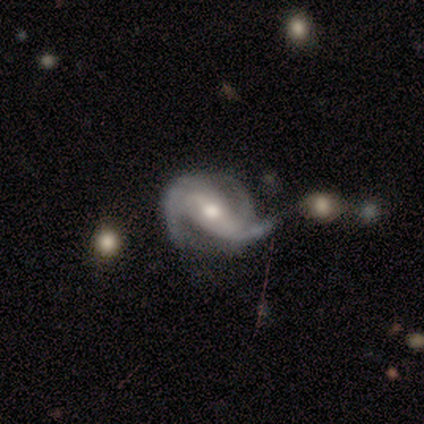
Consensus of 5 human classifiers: Volunteers were most divided on "bar" (2-way tie): strong: 40%, no: 40%, weak: 20%. More confident: smooth or featured — featured or disk (100%); edge-on disk — no (100%); spiral arms — yes (100%); merging — none (80%); spiral winding — loose (60%); spiral arm count — 3 (60%); bulge size — moderate (60%).